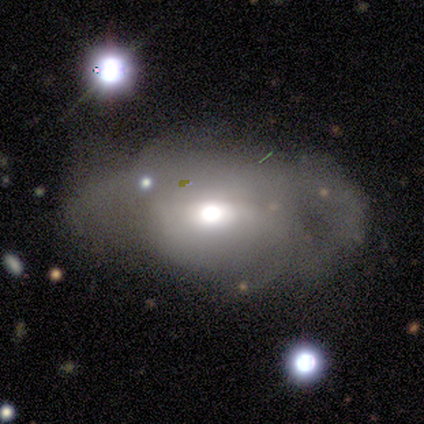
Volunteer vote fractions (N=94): This appears to be a featured or disk galaxy (52%) with no bar (65%), no spiral arms (52%) and a moderate central bulge (57%). Merging: major disturbance (51%).